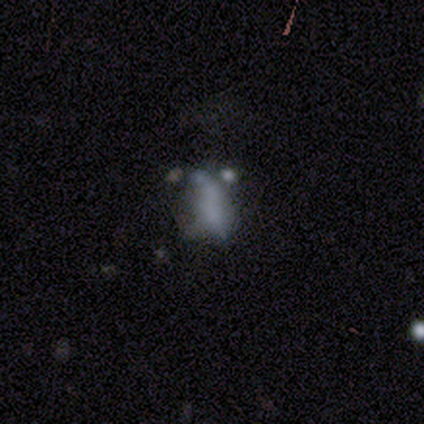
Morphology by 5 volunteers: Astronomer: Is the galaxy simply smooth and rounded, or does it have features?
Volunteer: featured or disk — 60%.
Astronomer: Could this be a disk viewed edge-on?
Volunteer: no — 100%.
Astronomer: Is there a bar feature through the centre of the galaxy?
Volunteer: no — 100%.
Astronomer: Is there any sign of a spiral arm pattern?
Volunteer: no — 100%.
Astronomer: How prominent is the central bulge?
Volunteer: none — 100%.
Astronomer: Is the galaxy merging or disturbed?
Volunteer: major disturbance — 100%.